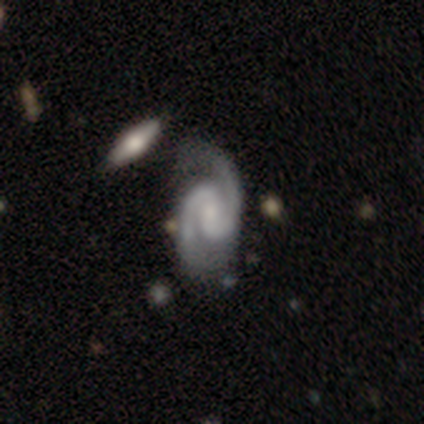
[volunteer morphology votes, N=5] type=featured or disk (100%); edge-on=no (100%); bar=weak (80%); spiral arms=yes (100%); winding=medium (60%); arm count=2 (100%); bulge=small (80%); merging=none (60%).